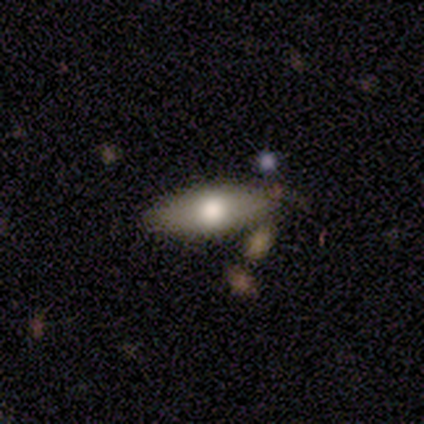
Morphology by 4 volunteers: A smooth galaxy with no disk features (100%) that is in between round and cigar-shaped (75%).

Vote fractions:
- Smooth or featured? smooth: 100% / featured or disk: 0% / star or artifact: 0%
- How rounded? in between: 75% / cigar-shaped: 25% / round: 0%
- Merging? none: 50% (tied) / merger: 50% (tied) / minor disturbance: 0% / major disturbance: 0%